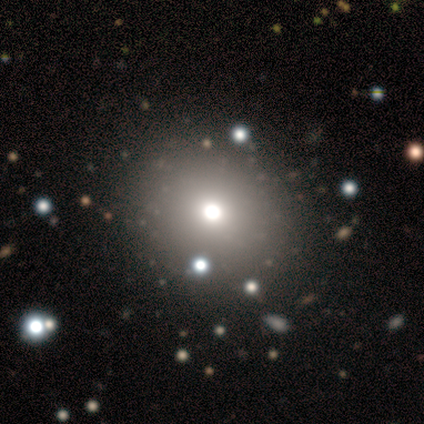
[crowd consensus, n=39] A smooth galaxy with no disk features (79%) that is round (84%).

Vote fractions:
- Smooth or featured? smooth: 79% / featured or disk: 15% / star or artifact: 5%
- How rounded? round: 84% / in between: 16% / cigar-shaped: 0%
- Merging? none: 89% / major disturbance: 5% / minor disturbance: 3% / merger: 3%